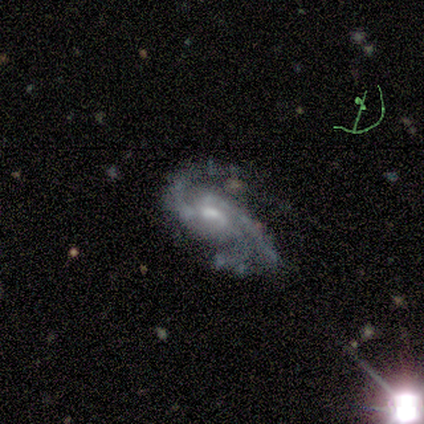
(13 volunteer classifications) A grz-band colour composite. It shows a featured or disk galaxy (100%) with no bar (46%), 2 (54%) medium (54%) spiral arms (100%) and a moderate central bulge (54%). Merging: none (46%).